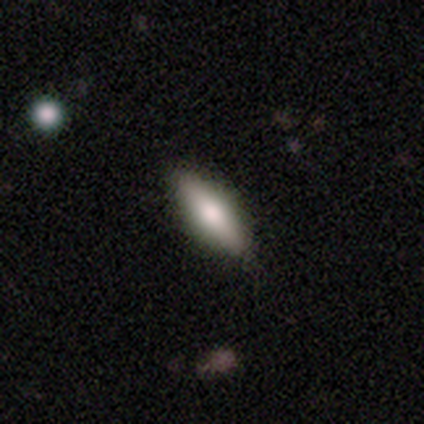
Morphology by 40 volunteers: Q: Smooth or featured?
A: smooth (52%); runner-up: featured or disk (48%)
Q: How rounded?
A: in between (48%); tied with: cigar-shaped (48%)
Q: Merging?
A: none (60%); runner-up: minor disturbance (8%)